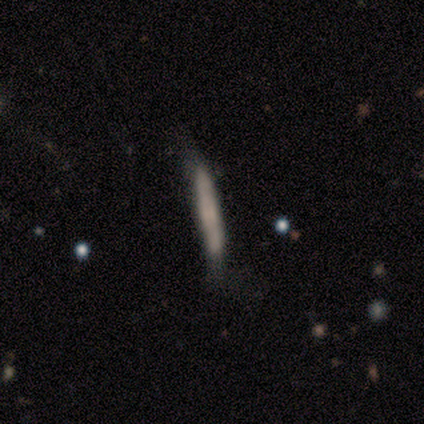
A featured or disk galaxy (60%) viewed edge-on (100%) with no central bulge (100%). Merging: none (40%, tied with minor disturbance).